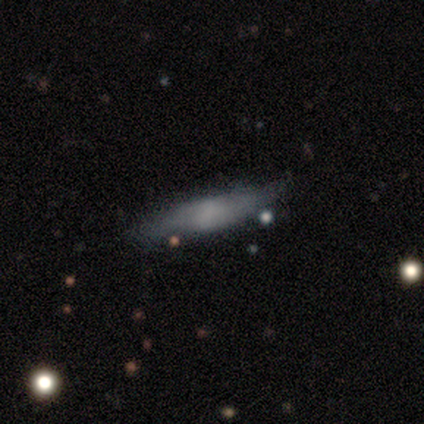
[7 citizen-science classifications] This appears to be a smooth galaxy with no disk features (71%) that is cigar-shaped (80%). Merging: none (67%).